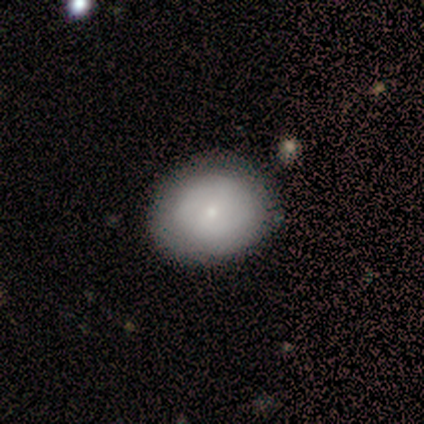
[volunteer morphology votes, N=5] Smooth or featured: smooth — 60% (featured or disk — 40%)
How rounded: in between — 67% (round — 33%)
Merging: none — 100%